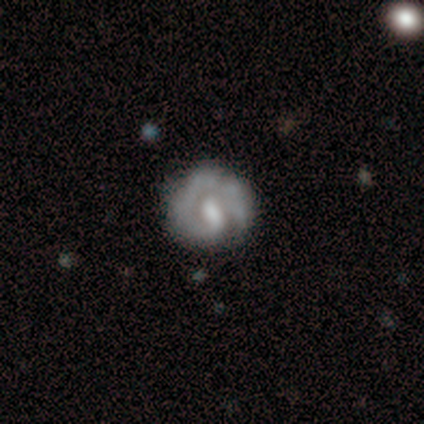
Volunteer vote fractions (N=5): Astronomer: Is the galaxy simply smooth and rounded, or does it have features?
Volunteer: featured or disk — 100%.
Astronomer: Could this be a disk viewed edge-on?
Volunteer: no — 100%.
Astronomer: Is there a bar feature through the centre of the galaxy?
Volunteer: strong — 40%, tied with no at 40%.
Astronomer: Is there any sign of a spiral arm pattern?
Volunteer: yes — 100%.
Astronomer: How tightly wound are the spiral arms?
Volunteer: medium — 60% (runner-up: tight, 40%).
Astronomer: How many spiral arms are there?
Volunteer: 1 — 40% (runner-up: 3, 20%).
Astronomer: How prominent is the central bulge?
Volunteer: large — 40%, tied with small at 40%.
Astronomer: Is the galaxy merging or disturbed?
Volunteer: none — 60%.